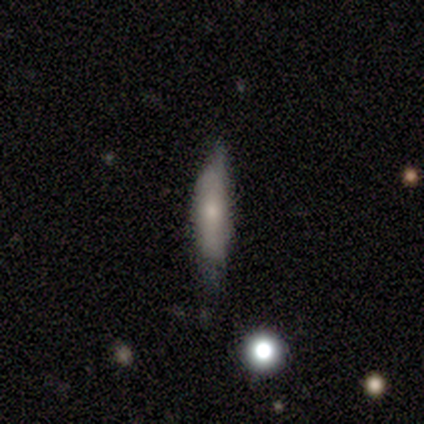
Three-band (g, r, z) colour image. It shows a smooth galaxy with no disk features (100%) that is cigar-shaped (60%). Merging: none (40%, tied with minor disturbance).